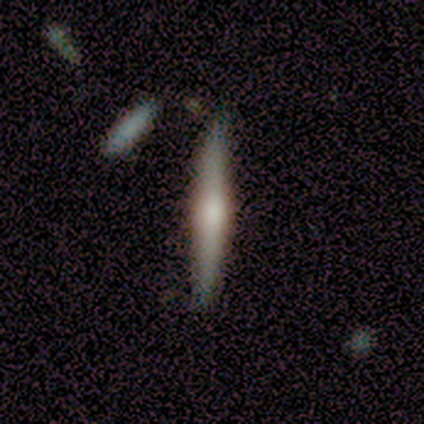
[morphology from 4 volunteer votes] Smooth or featured? smooth (50%, tied with featured or disk)
How rounded? cigar-shaped (100%)
Merging? none (100%)